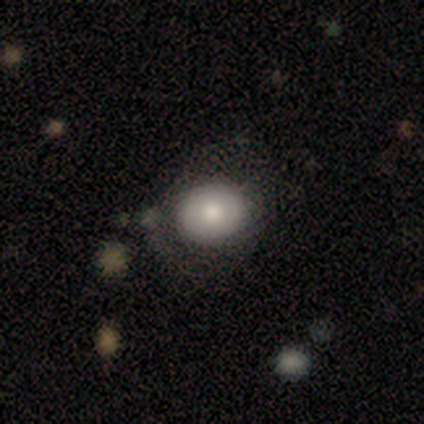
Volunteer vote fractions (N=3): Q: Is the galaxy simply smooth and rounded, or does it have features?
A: featured or disk — 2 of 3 (67%).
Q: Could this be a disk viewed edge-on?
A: no — 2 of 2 (100%).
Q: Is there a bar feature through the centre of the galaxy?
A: no — 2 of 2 (100%).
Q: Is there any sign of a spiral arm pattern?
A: no — 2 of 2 (100%).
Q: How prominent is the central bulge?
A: moderate — 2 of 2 (100%).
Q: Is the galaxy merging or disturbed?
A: none — 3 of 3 (100%).